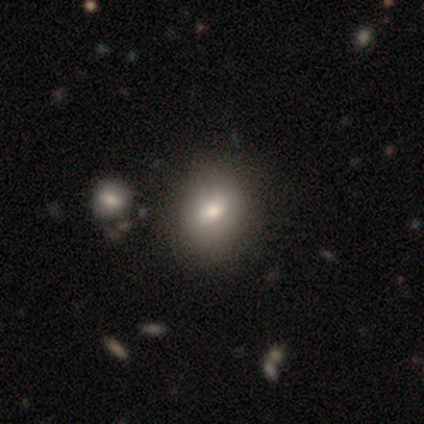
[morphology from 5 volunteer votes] A smooth galaxy with no disk features (60%) that is round (100%).

Vote fractions:
- Smooth or featured? smooth: 60% / featured or disk: 40% / star or artifact: 0%
- How rounded? round: 100% / in between: 0% / cigar-shaped: 0%
- Merging? none: 80% / major disturbance: 20% / minor disturbance: 0% / merger: 0%